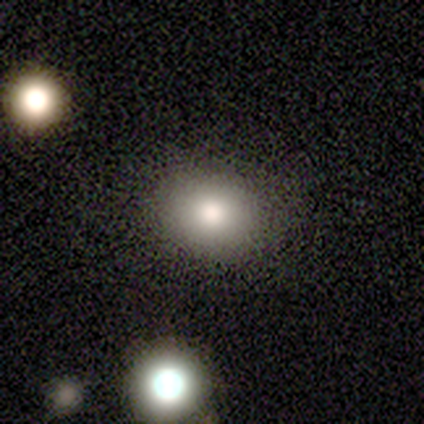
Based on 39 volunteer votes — Q: Smooth or featured?
A: smooth (74%); runner-up: star or artifact (15%)
Q: How rounded?
A: round (59%); runner-up: in between (41%)
Q: Merging?
A: none (97%); runner-up: minor disturbance (3%)